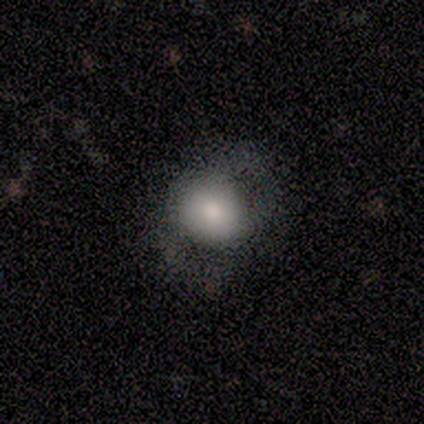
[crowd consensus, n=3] A featured or disk galaxy (67%) with a weak bar (50%, tied with no), 2 (100%) tight (100%) spiral arms (50%, tied with no) and a moderate central bulge (100%).

Vote fractions:
- Smooth or featured? featured or disk: 67% / smooth: 33% / star or artifact: 0%
- Edge-on disk? no: 100% / yes: 0%
- Bar? weak: 50% (tied) / no: 50% (tied) / strong: 0%
- Spiral arms? yes: 50% (tied) / no: 50% (tied)
- Spiral winding? tight: 100% / medium: 0% / loose: 0%
- Spiral arm count? 2: 100% / 1: 0% / 3: 0% / 4: 0% / more than 4: 0% / can't tell: 0%
- Bulge size? moderate: 100% / dominant: 0% / large: 0% / small: 0% / none: 0%
- Merging? none: 100% / minor disturbance: 0% / major disturbance: 0% / merger: 0%